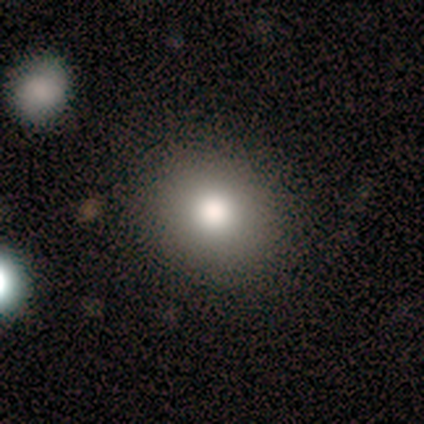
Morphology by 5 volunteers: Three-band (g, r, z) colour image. It shows a smooth galaxy with no disk features (80%) that is round (100%). Merging: none (80%).